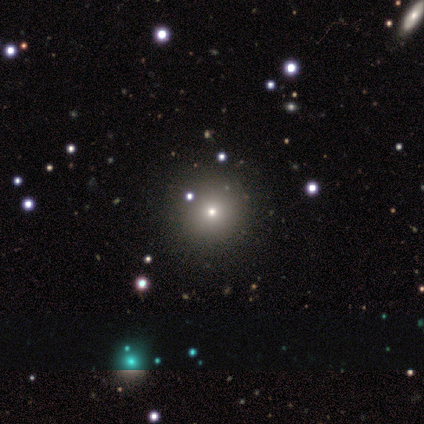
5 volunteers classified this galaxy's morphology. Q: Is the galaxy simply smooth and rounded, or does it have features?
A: smooth — 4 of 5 (80%).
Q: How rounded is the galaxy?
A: round — 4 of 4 (100%).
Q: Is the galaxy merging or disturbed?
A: none — 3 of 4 (75%).